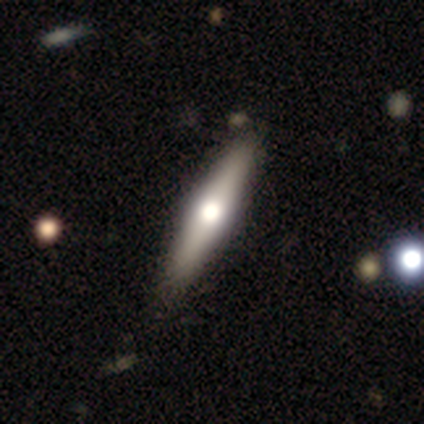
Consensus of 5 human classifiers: A featured or disk galaxy (60%) viewed edge-on (100%) with a rounded central bulge (100%). Merging: none (100%).